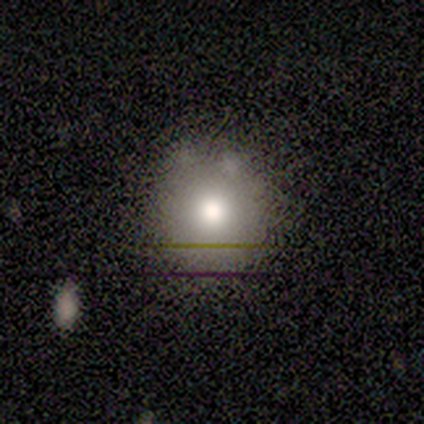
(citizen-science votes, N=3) Smooth or featured?
  - smooth: 33% * (tied)
  - featured or disk: 33% * (tied)
  - star or artifact: 33% * (tied)
How rounded?
  - round: 100% *
  - in between: 0%
  - cigar-shaped: 0%
Merging?
  - none: 100% *
  - minor disturbance: 0%
  - major disturbance: 0%
  - merger: 0%